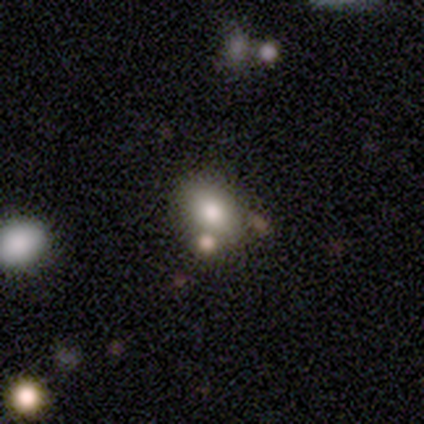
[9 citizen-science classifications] Smooth or featured: smooth — 78% (featured or disk — 11%)
How rounded: in between — 71% (round — 29%)
Merging: none — 88% (merger — 12%)